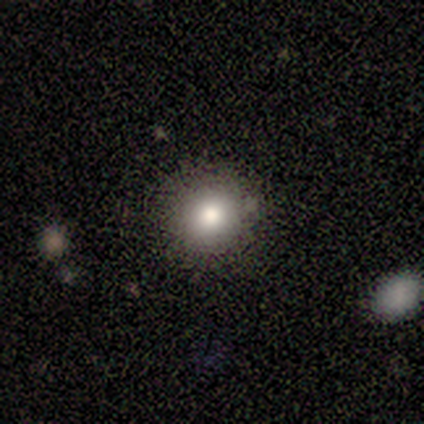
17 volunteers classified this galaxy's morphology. Q: Smooth or featured?
A: smooth (82%); runner-up: star or artifact (12%)
Q: How rounded?
A: round (100%)
Q: Merging?
A: none (93%); runner-up: major disturbance (7%)